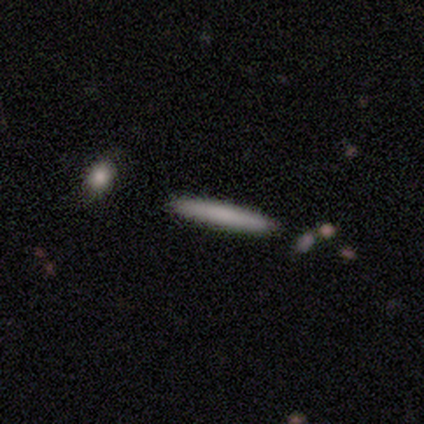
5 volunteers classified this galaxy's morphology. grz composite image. It shows a smooth galaxy with no disk features (80%) that is cigar-shaped (100%). Merging: none (75%).